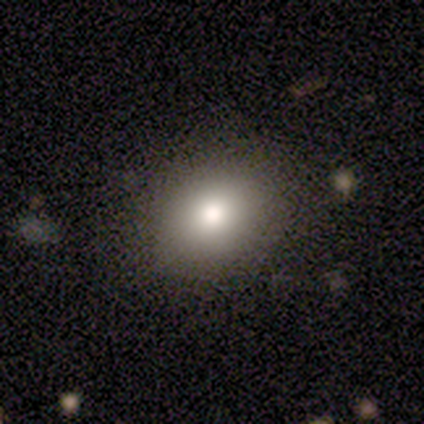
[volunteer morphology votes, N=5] A smooth galaxy with no disk features (60%) that is round (67%). Merging: none (100%).